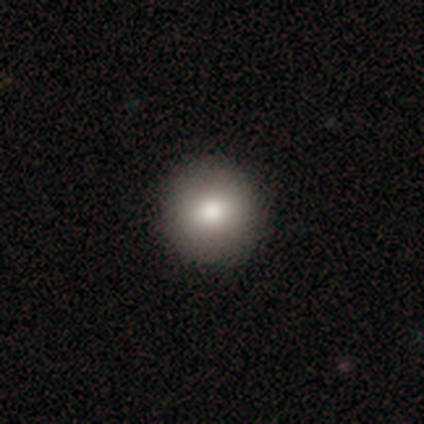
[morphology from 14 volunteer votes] smooth_or_featured: smooth (p=0.71) [alt: featured or disk p=0.21]
how_rounded: round (p=1.00)
merging: none (p=0.85) [alt: minor disturbance p=0.15]